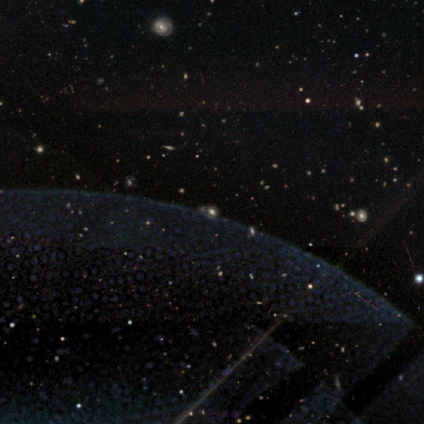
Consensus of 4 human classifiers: A star or artifact, not a galaxy (100%).

Vote fractions:
- Smooth or featured? star or artifact: 100% / smooth: 0% / featured or disk: 0%